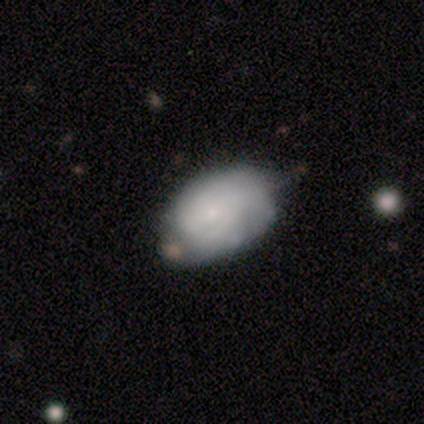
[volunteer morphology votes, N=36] This is possibly a smooth galaxy (58%). How rounded: clearly in between (95%). Merging: likely none (68%).